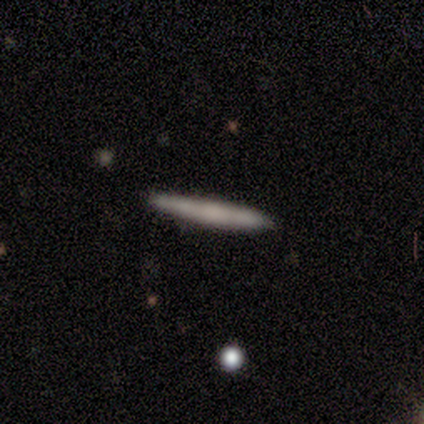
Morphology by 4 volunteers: A smooth galaxy with no disk features (100%) that is cigar-shaped (100%). Merging: none (75%).